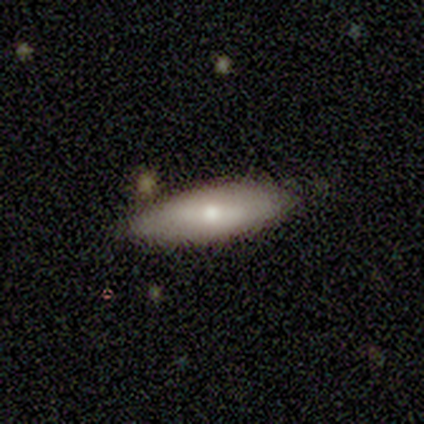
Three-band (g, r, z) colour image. It shows a smooth galaxy with no disk features (75%) that is in between round and cigar-shaped (67%). Merging: none (100%).